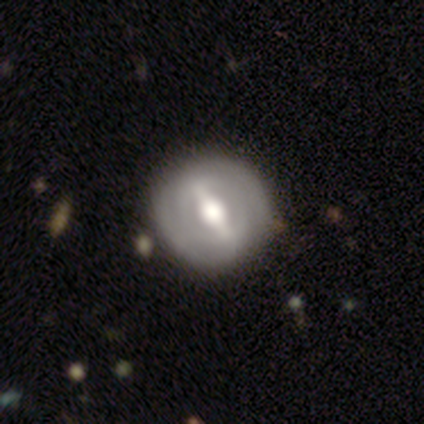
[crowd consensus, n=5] Volunteers were most divided on "bar" (2-way tie): strong: 50%, weak: 50%, no: 0%. More confident: smooth or featured — featured or disk (100%); merging — none (100%); edge-on disk — no (80%); spiral arms — no (75%); bulge size — moderate (75%).